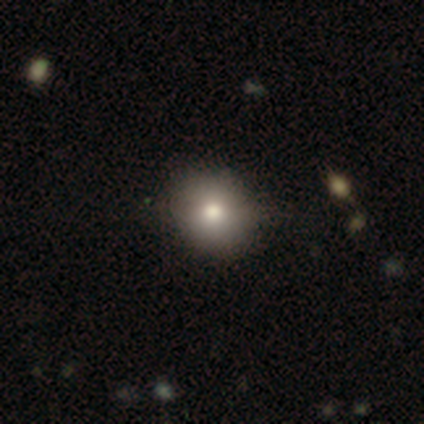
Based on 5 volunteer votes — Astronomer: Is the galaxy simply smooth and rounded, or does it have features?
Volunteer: smooth — 40%, tied with featured or disk at 40%.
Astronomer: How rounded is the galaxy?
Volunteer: round — 100%.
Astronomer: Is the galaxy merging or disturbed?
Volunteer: none — 50%, tied with minor disturbance at 50%.